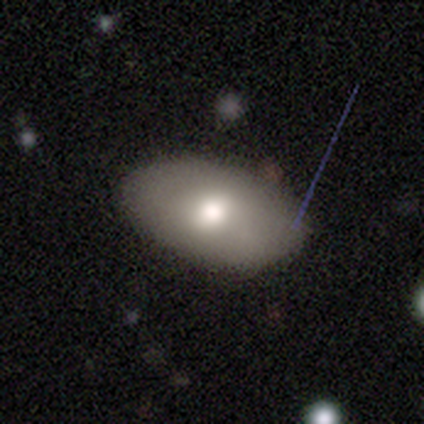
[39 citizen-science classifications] Morphology: type=smooth (46%); roundness=in between (94%); merging=none (85%).